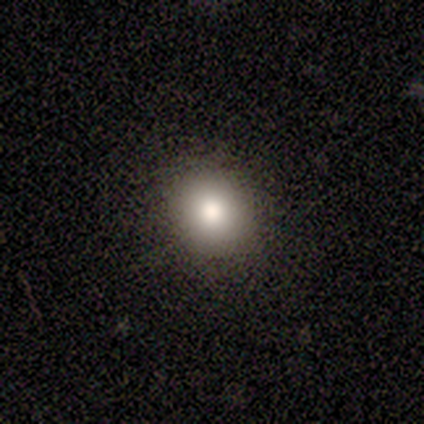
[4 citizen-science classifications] A smooth galaxy with no disk features (75%) that is round (100%).

Vote fractions:
- Smooth or featured? smooth: 75% / star or artifact: 25% / featured or disk: 0%
- How rounded? round: 100% / in between: 0% / cigar-shaped: 0%
- Merging? none: 100% / minor disturbance: 0% / major disturbance: 0% / merger: 0%